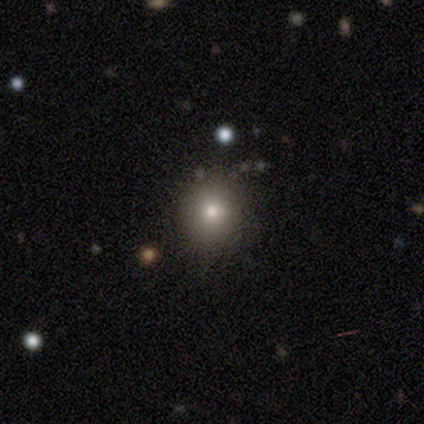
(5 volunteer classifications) Smooth or featured? 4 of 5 (80%) said smooth. How rounded? 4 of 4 (100%) said round. Merging? 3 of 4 (75%) said none.